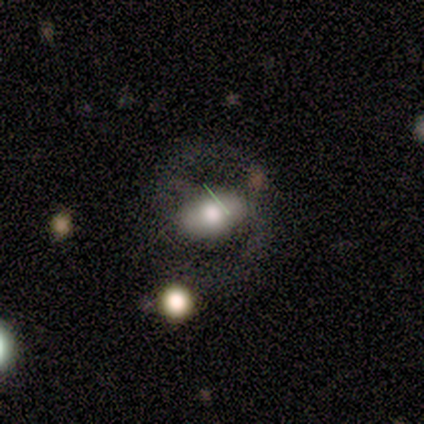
Volunteers were most divided on "bar" (3-way tie): strong: 33%, weak: 33%, no: 33%. More confident: edge-on disk — no (100%); spiral arms — no (67%); bulge size — moderate (67%); smooth or featured — featured or disk (60%); merging — major disturbance (60%).